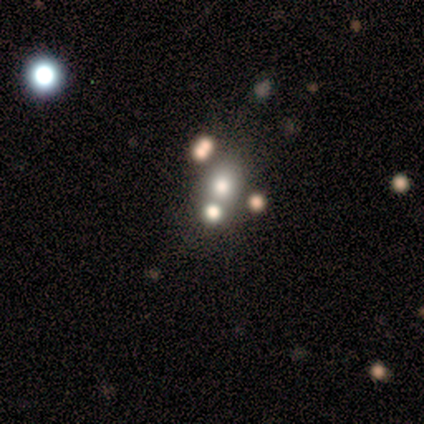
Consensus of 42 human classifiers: Overall: smooth (76%). How rounded: in between (53%; round 41%). Merging: merger (50%; none 37%).